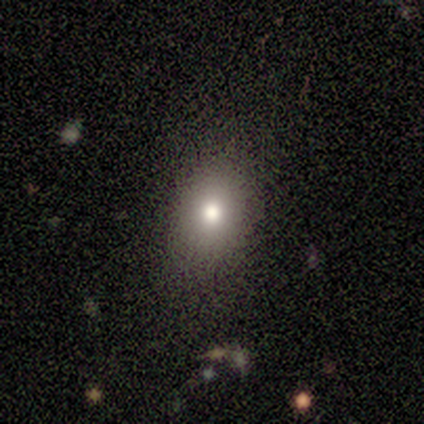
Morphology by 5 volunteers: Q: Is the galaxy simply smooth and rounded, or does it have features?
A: smooth — 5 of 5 (100%).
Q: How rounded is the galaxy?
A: in between — 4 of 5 (80%).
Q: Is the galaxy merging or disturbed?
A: none — 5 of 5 (100%).